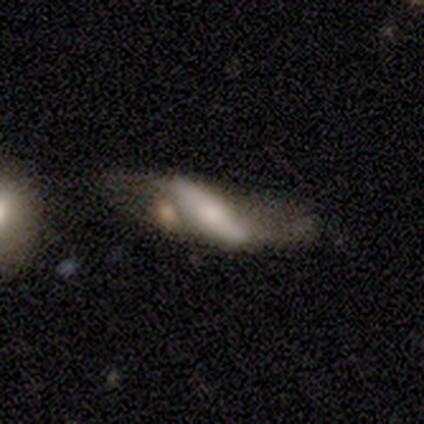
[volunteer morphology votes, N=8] featured or disk 50%, smooth 38%, star or artifact 12%. Down the decision tree: edge-on disk — no (75%); bar — no (67%); spiral arms — no (67%); bulge size — small (100%); merging — none (43%, tied with major disturbance).